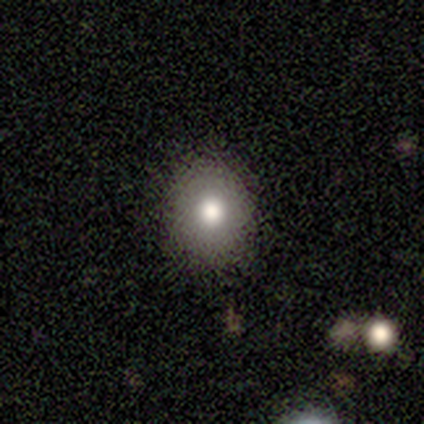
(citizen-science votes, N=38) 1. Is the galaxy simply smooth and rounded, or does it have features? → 82% smooth, 11% featured or disk, 8% star or artifact.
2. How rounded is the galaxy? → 55% round, 42% in between, 3% cigar-shaped.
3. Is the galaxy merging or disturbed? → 83% none, 14% minor disturbance, 3% major disturbance, 0% merger.